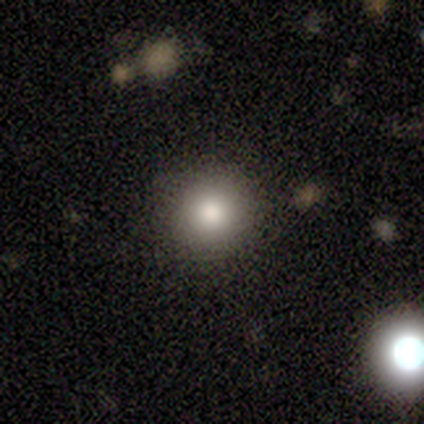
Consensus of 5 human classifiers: smooth-or-featured: smooth: 80% | star or artifact: 20% | featured or disk: 0%
  how-rounded: round: 75% | in between: 25% | cigar-shaped: 0%
  merging: none: 100% | minor disturbance: 0% | major disturbance: 0% | merger: 0%